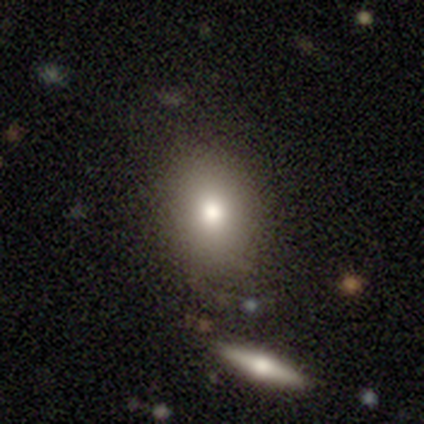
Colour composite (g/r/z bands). It shows a smooth galaxy with no disk features (56%) that is in between round and cigar-shaped (80%). Merging: none (100%).